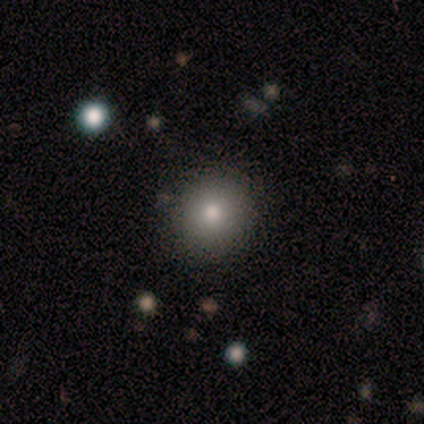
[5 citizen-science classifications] Morphology: type=smooth (80%); roundness=round (75%); merging=minor disturbance (60%).